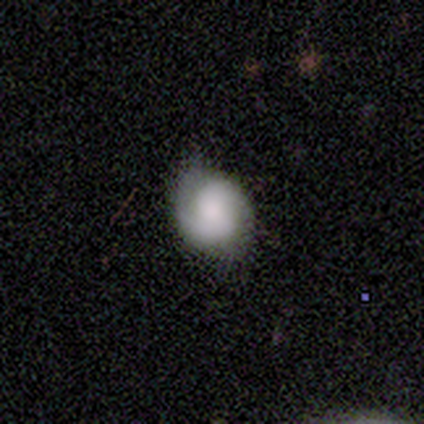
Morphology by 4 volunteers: smooth 50% (tied), featured or disk 50% (tied), star or artifact 0%. Down the decision tree: how rounded — round (50%, tied with in between); merging — none (75%).